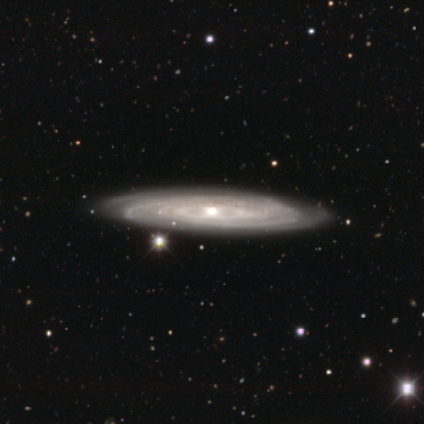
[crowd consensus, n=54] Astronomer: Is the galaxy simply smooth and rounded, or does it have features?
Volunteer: featured or disk — 94%.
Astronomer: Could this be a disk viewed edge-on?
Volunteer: no — 76%.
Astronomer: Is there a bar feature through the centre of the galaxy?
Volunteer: no — 85%.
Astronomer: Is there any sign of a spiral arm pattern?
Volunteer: yes — 82%.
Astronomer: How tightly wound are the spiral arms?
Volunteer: tight — 72%.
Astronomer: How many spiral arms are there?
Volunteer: can't tell — 50%.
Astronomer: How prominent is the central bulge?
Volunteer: moderate — 54% (runner-up: small, 44%).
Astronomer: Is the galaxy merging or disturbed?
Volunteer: none — 89%.